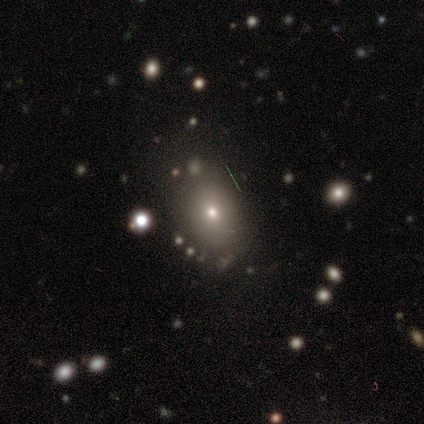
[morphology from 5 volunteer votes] A smooth galaxy with no disk features (80%) that is round (50%, tied with in between).

Vote fractions:
- Smooth or featured? smooth: 80% / featured or disk: 20% / star or artifact: 0%
- How rounded? round: 50% (tied) / in between: 50% (tied) / cigar-shaped: 0%
- Merging? none: 60% / merger: 40% / minor disturbance: 0% / major disturbance: 0%